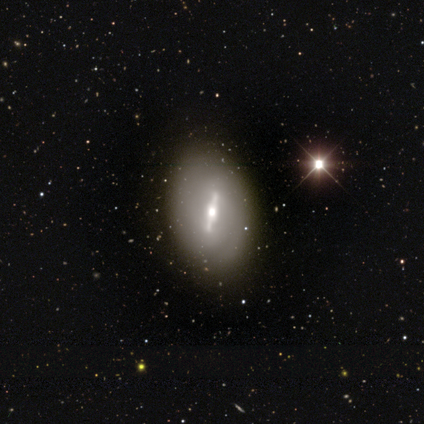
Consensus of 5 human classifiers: Smooth or featured? 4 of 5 (80%) said featured or disk. Edge-on disk? 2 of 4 (50%, tied with no) said yes. Edge-on bulge? 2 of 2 (100%) said rounded. Merging? 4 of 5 (80%) said none.